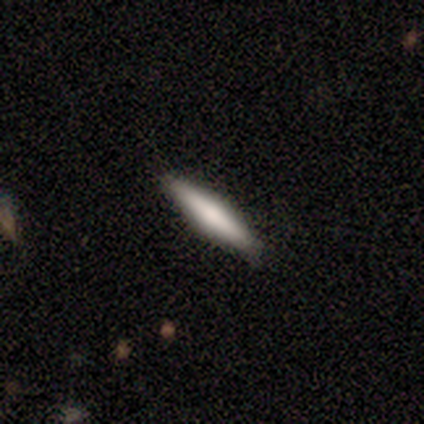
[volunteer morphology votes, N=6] A smooth galaxy with no disk features (83%) that is cigar-shaped (100%). Merging: none (100%).